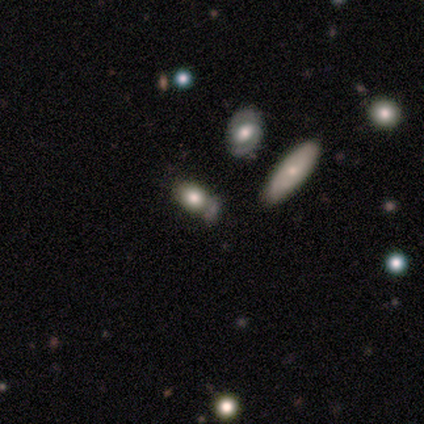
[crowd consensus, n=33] A smooth galaxy with no disk features (64%) that is in between round and cigar-shaped (81%).

Vote fractions:
- Smooth or featured? smooth: 64% / featured or disk: 18% / star or artifact: 18%
- How rounded? in between: 81% / round: 14% / cigar-shaped: 5%
- Merging? none: 48% / merger: 30% / minor disturbance: 15% / major disturbance: 7%